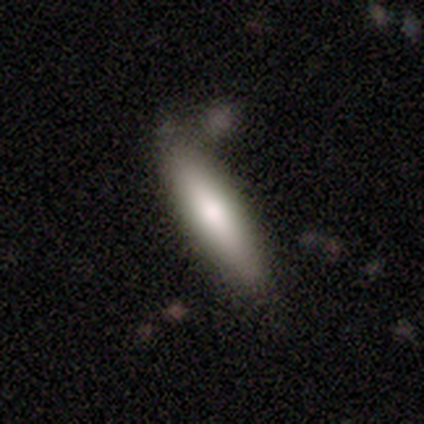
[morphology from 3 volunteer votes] type=smooth (100%); roundness=cigar-shaped (100%); merging=none (67%).